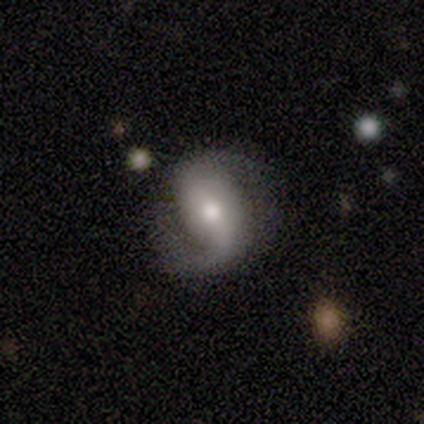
Smooth or featured? 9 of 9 (100%) said featured or disk. Edge-on disk? 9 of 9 (100%) said no. Bar? 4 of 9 (44%) said no. Spiral arms? 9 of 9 (100%) said yes. Spiral winding? 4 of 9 (44%) said loose. Spiral arm count? 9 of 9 (100%) said 2. Bulge size? 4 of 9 (44%, tied with small) said moderate. Merging? 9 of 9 (100%) said none.